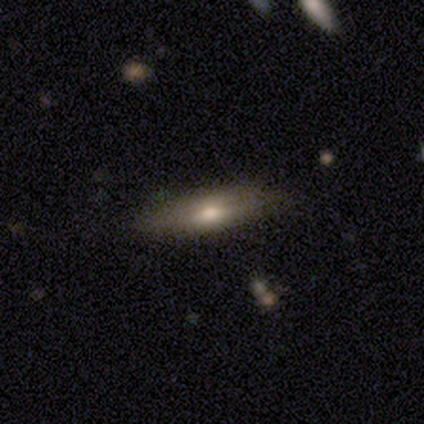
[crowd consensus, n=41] smooth_or_featured: smooth (p=0.49) [alt: featured or disk p=0.44]
how_rounded: cigar-shaped (p=0.60) [alt: in between p=0.40]
merging: none (p=0.87) [alt: minor disturbance p=0.11]